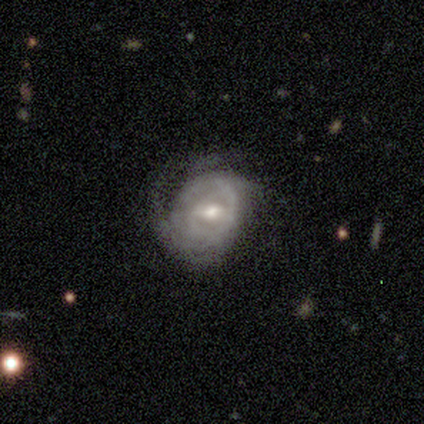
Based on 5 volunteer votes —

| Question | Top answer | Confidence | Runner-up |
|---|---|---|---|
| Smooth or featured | featured or disk | 100% | — |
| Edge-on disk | no | 100% | — |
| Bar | weak | 40% | tied: no (40%) |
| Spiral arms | yes | 80% | no (20%) |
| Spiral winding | loose | 50% | tight (25%) |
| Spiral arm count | can't tell | 50% | 1 (25%) |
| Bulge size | moderate | 40% | tied: small (40%) |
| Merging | none | 60% | minor disturbance (40%) |